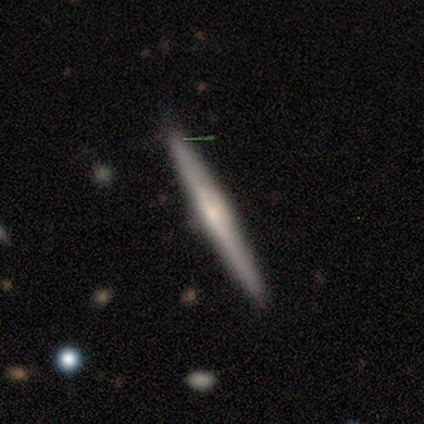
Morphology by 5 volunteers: smooth_or_featured: featured or disk (p=0.80) [alt: smooth p=0.20]
disk_edge_on: yes (p=1.00)
edge_on_bulge: rounded (p=0.50) [alt: boxy p=0.25]
merging: none (p=0.80) [alt: minor disturbance p=0.20]